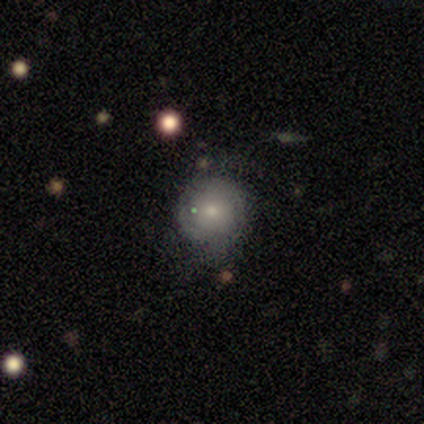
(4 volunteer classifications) Q: Smooth or featured?
A: smooth (100%)
Q: How rounded?
A: round (75%); runner-up: in between (25%)
Q: Merging?
A: none (50%); tied with: minor disturbance (50%)